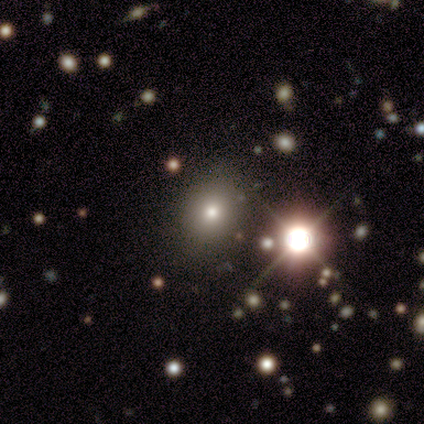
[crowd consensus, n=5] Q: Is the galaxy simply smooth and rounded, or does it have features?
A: star or artifact — 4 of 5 (80%).